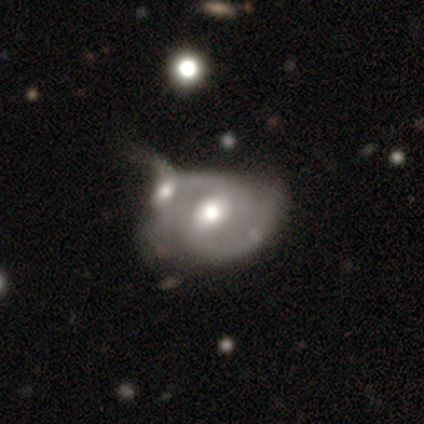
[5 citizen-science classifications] smooth_or_featured: featured or disk (p=1.00)
disk_edge_on: no (p=1.00)
bar: weak (p=0.80) [alt: strong p=0.20]
has_spiral_arms: yes (p=1.00)
spiral_winding: medium (p=0.60) [alt: tight p=0.40]
spiral_arm_count: 2 (p=1.00)
bulge_size: moderate (p=0.60) [alt: large p=0.20]
merging: major disturbance (p=0.40) [tied with: merger p=0.40]